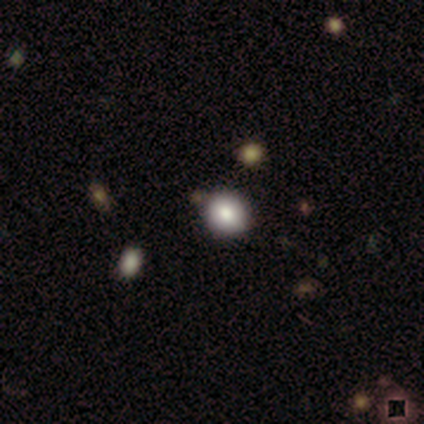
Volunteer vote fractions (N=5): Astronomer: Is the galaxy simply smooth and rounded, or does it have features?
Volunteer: smooth — 80%.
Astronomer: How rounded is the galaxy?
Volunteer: round — 50%, tied with in between at 50%.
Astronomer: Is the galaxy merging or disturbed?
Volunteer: none — 80%.